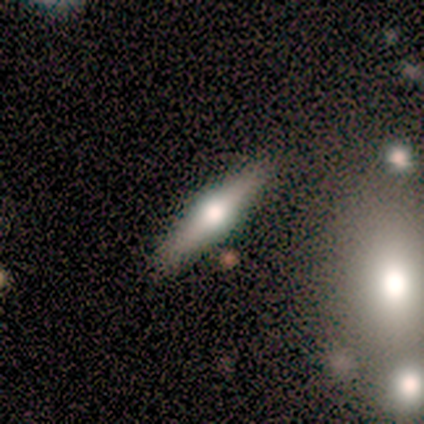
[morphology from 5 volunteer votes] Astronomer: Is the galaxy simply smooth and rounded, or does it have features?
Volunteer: featured or disk — 60% (runner-up: smooth, 40%).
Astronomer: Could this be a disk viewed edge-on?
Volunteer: yes — 100%.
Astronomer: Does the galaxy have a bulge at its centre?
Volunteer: rounded — 100%.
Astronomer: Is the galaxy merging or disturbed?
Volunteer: none — 100%.